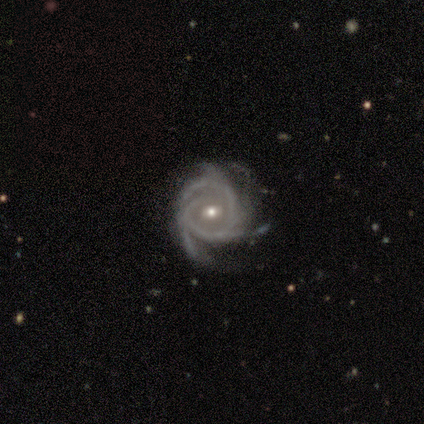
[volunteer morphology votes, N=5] A featured or disk galaxy (100%) with a strong bar (40%, tied with no), 3 (40%, tied with 4) tight (40%, tied with medium) spiral arms (100%) and a small central bulge (60%).

Vote fractions:
- Smooth or featured? featured or disk: 100% / smooth: 0% / star or artifact: 0%
- Edge-on disk? no: 100% / yes: 0%
- Bar? strong: 40% (tied) / no: 40% (tied) / weak: 20%
- Spiral arms? yes: 100% / no: 0%
- Spiral winding? tight: 40% (tied) / medium: 40% (tied) / loose: 20%
- Spiral arm count? 3: 40% (tied) / 4: 40% (tied) / 2: 20% / 1: 0% / more than 4: 0% / can't tell: 0%
- Bulge size? small: 60% / moderate: 40% / dominant: 0% / large: 0% / none: 0%
- Merging? none: 80% / major disturbance: 20% / minor disturbance: 0% / merger: 0%